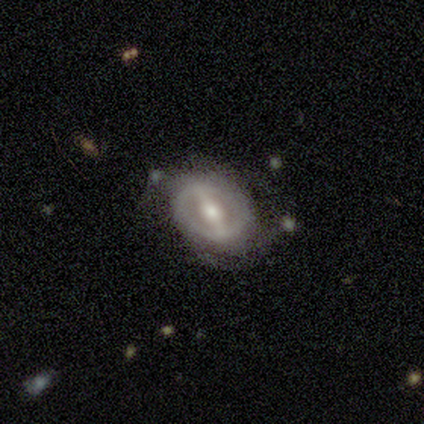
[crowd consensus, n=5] Smooth or featured?
  - featured or disk: 100% *
  - smooth: 0%
  - star or artifact: 0%
Edge-on disk?
  - no: 100% *
  - yes: 0%
Bar?
  - strong: 80% *
  - no: 20%
  - weak: 0%
Spiral arms?
  - yes: 100% *
  - no: 0%
Spiral winding?
  - tight: 40% * (tied)
  - loose: 40% * (tied)
  - medium: 20%
Spiral arm count?
  - can't tell: 60% *
  - 2: 40%
  - 1: 0%
  - 3: 0%
  - 4: 0%
  - more than 4: 0%
Bulge size?
  - moderate: 60% *
  - small: 40%
  - dominant: 0%
  - large: 0%
  - none: 0%
Merging?
  - none: 40% * (tied)
  - minor disturbance: 40% * (tied)
  - merger: 20%
  - major disturbance: 0%